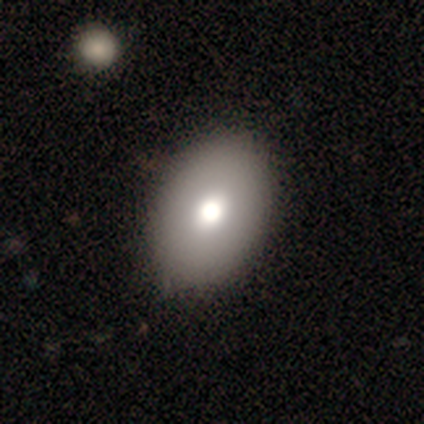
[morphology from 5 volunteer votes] This is clearly a smooth galaxy (100%). How rounded: clearly in between (80%). Merging: clearly none (100%).